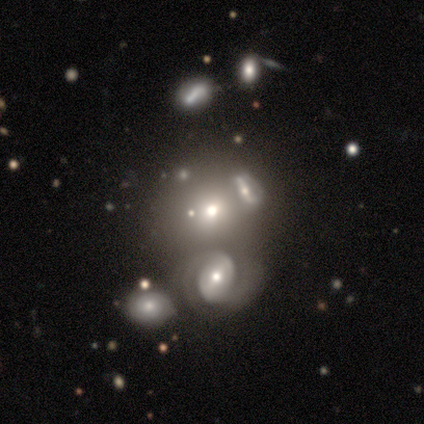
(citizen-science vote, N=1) This is clearly a smooth galaxy (100%). How rounded: clearly round (100%). Merging: clearly none (100%).